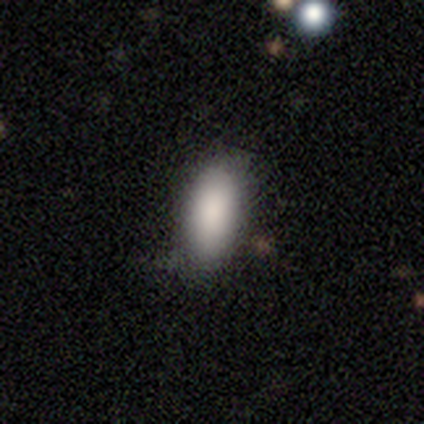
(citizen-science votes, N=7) Overall: smooth (86%). How rounded: in between (83%). Merging: none (67%; minor disturbance 33%).